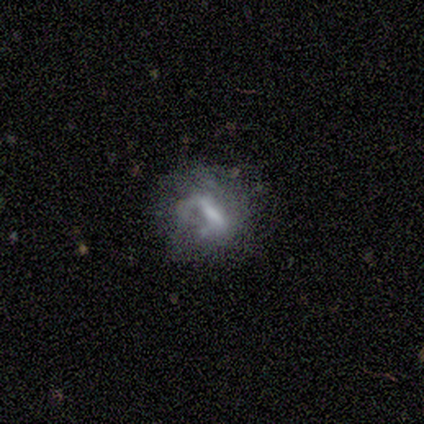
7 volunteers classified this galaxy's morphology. Q: Smooth or featured?
A: featured or disk (57%); runner-up: smooth (43%)
Q: Edge-on disk?
A: no (100%)
Q: Bar?
A: strong (50%); runner-up: weak (25%)
Q: Spiral arms?
A: yes (50%); tied with: no (50%)
Q: Spiral winding?
A: tight (50%); tied with: loose (50%)
Q: Spiral arm count?
A: 1 (100%)
Q: Bulge size?
A: small (50%); tied with: none (50%)
Q: Merging?
A: none (100%)